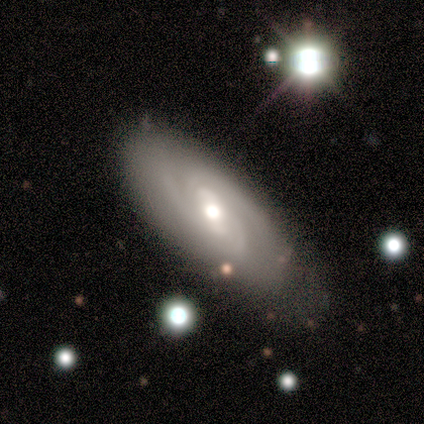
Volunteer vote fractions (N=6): A featured or disk galaxy (67%) with a weak bar (67%), 2 (33%, tied with 3 and can't tell) tight (67%) spiral arms (100%) and a moderate central bulge (100%).

Vote fractions:
- Smooth or featured? featured or disk: 67% / smooth: 33% / star or artifact: 0%
- Edge-on disk? no: 75% / yes: 25%
- Bar? weak: 67% / strong: 33% / no: 0%
- Spiral arms? yes: 100% / no: 0%
- Spiral winding? tight: 67% / medium: 33% / loose: 0%
- Spiral arm count? 2: 33% (tied) / 3: 33% (tied) / can't tell: 33% (tied) / 1: 0% / 4: 0% / more than 4: 0%
- Bulge size? moderate: 100% / dominant: 0% / large: 0% / small: 0% / none: 0%
- Merging? minor disturbance: 67% / none: 33% / major disturbance: 0% / merger: 0%